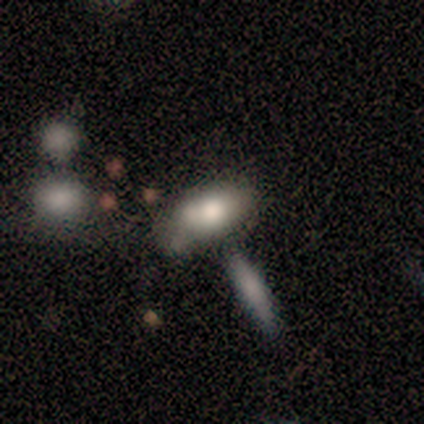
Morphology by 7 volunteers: Overall: smooth (86%). How rounded: in between (100%). Merging: minor disturbance (57%; merger 29%).